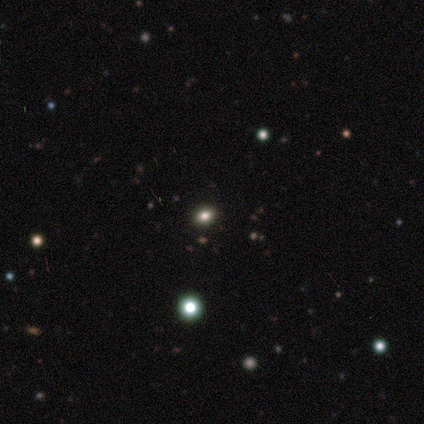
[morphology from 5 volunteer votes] A smooth galaxy with no disk features (60%) that is round (67%).

Vote fractions:
- Smooth or featured? smooth: 60% / star or artifact: 40% / featured or disk: 0%
- How rounded? round: 67% / in between: 33% / cigar-shaped: 0%
- Merging? none: 100% / minor disturbance: 0% / major disturbance: 0% / merger: 0%